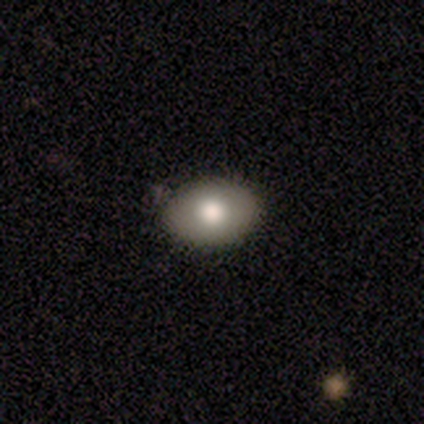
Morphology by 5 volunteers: smooth 60%, featured or disk 40%, star or artifact 0%. Down the decision tree: how rounded — in between (100%); merging — none (100%).